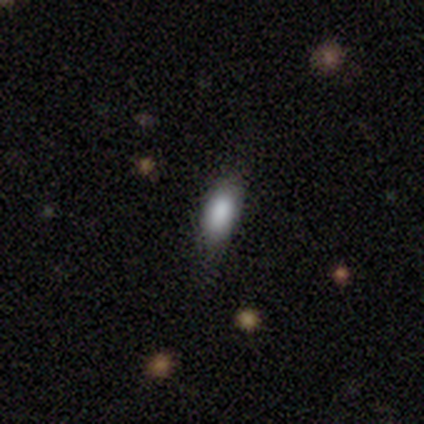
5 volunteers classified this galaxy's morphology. smooth_or_featured: smooth (p=1.00)
how_rounded: in between (p=0.80) [alt: cigar-shaped p=0.20]
merging: none (p=0.80) [alt: minor disturbance p=0.20]